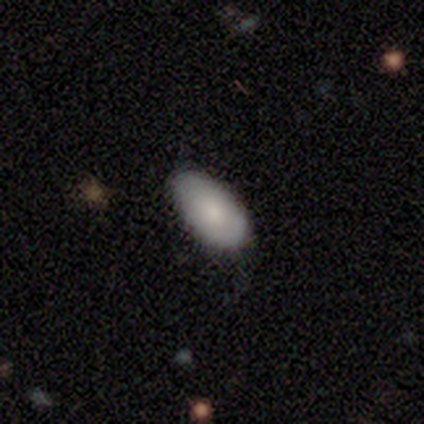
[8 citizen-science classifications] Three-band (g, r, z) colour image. It shows a smooth galaxy with no disk features (62%) that is in between round and cigar-shaped (100%). Merging: none (71%).